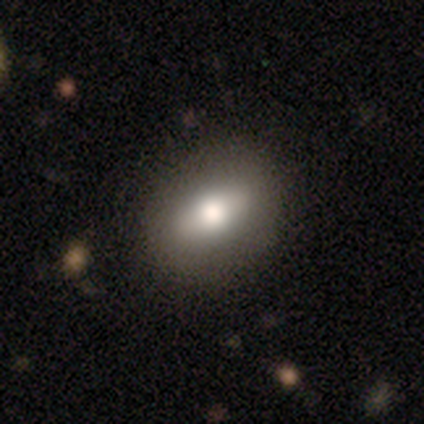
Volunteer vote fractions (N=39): smooth 54%, featured or disk 33%, star or artifact 13%. Down the decision tree: how rounded — in between (57%); merging — none (88%).